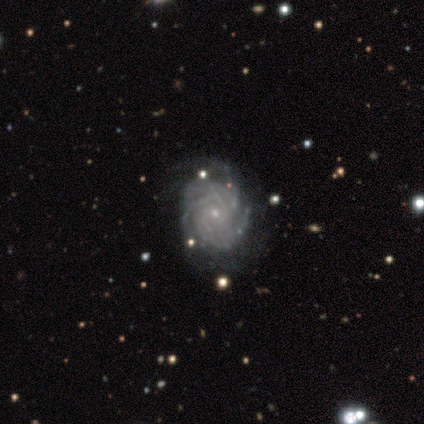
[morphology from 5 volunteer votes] smooth-or-featured: featured or disk: 100% | smooth: 0% | star or artifact: 0%
  disk-edge-on: no: 100% | yes: 0%
    bar: no: 100% | strong: 0% | weak: 0%
    has-spiral-arms: yes: 100% | no: 0%
      spiral-winding: tight: 100% | medium: 0% | loose: 0%
      spiral-arm-count: can't tell: 80% | 3: 20% | 1: 0% | 2: 0% | 4: 0% | more than 4: 0%
    bulge-size: small: 100% | dominant: 0% | large: 0% | moderate: 0% | none: 0%
  merging: none: 100% | minor disturbance: 0% | major disturbance: 0% | merger: 0%